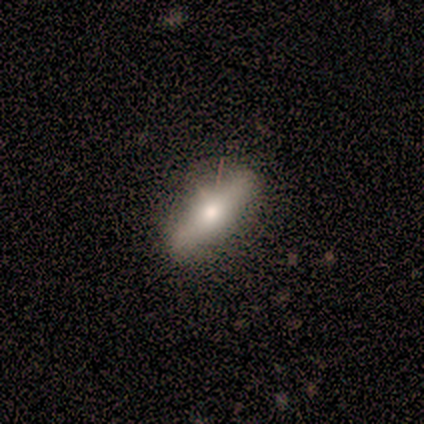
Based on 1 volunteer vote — A featured or disk galaxy (100%) viewed edge-on (100%) with a rounded central bulge (100%).

Vote fractions:
- Smooth or featured? featured or disk: 100% / smooth: 0% / star or artifact: 0%
- Edge-on disk? yes: 100% / no: 0%
- Edge-on bulge? rounded: 100% / boxy: 0% / none: 0%
- Merging? none: 100% / minor disturbance: 0% / major disturbance: 0% / merger: 0%